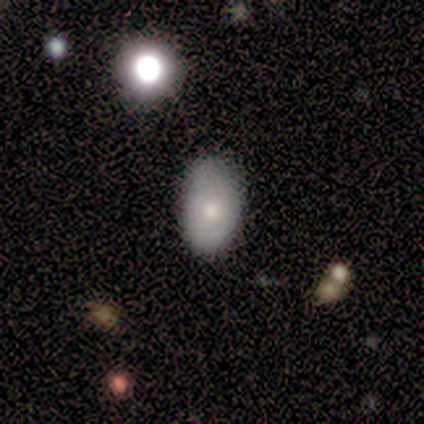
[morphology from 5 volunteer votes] type=featured or disk (80%); edge-on=no (100%); bar=no (100%); spiral arms=no (75%); bulge=small (50%); merging=none (60%).